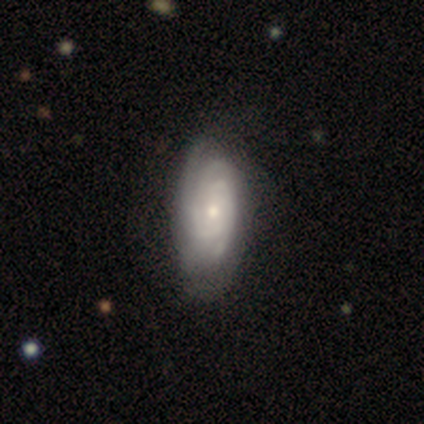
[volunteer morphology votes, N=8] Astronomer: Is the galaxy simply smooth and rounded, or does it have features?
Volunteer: featured or disk — 100%.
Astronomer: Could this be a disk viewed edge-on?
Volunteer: no — 100%.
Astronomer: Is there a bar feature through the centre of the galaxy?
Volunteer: no — 88%.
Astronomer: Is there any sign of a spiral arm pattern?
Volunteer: yes — 100%.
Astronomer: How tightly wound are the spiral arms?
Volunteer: tight — 62%.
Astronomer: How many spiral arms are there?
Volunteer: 3 — 50%.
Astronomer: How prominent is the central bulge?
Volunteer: moderate — 50%, tied with small at 50%.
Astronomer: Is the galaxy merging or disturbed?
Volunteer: none — 88%.